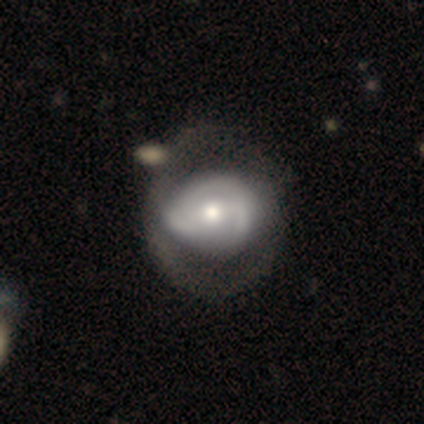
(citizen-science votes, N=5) This appears to be a featured or disk galaxy (60%) with no bar (67%), 2 (100%) tight (100%) spiral arms (67%) and a moderate central bulge (67%). Merging: none (40%, tied with minor disturbance).